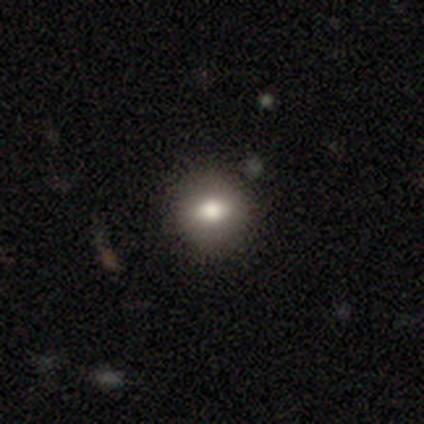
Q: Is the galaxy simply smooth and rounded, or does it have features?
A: smooth — 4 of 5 (80%).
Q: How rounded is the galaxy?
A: round — 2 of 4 (50%, tied with in between).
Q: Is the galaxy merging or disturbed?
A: none — 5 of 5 (100%).